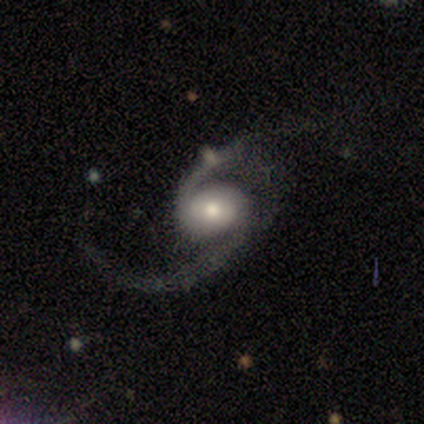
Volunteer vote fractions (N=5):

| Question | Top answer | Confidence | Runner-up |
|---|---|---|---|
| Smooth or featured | featured or disk | 100% | — |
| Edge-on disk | no | 100% | — |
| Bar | weak | 60% | no (40%) |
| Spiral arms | yes | 80% | no (20%) |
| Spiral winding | medium | 75% | loose (25%) |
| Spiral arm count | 2 | 75% | 1 (25%) |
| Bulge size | moderate | 80% | dominant (20%) |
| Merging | none | 80% | minor disturbance (20%) |